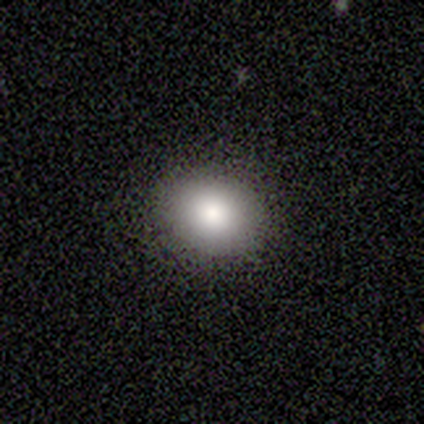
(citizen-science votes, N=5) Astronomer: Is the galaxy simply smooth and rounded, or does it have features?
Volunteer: smooth — 100%.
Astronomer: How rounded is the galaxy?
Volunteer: round — 60% (runner-up: in between, 40%).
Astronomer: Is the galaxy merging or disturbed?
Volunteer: none — 100%.